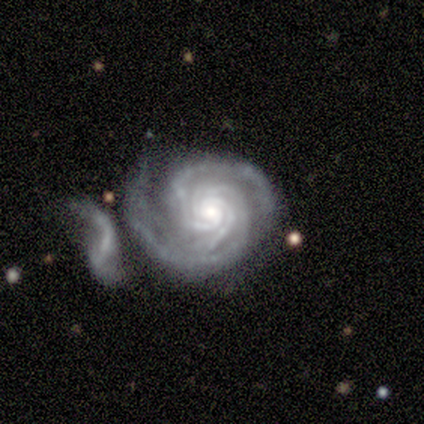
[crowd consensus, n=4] Smooth or featured: featured or disk — 100%
Edge-on disk: no — 100%
Bar: strong — 50% (tied with no — 50%)
Spiral arms: yes — 100%
Spiral winding: tight — 75% (medium — 25%)
Spiral arm count: 3 — 75% (4 — 25%)
Bulge size: moderate — 100%
Merging: major disturbance — 50% (tied with merger — 50%)